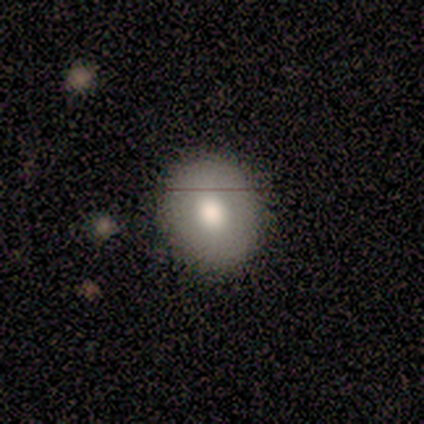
Q: Smooth or featured?
A: smooth (100%)
Q: How rounded?
A: round (100%)
Q: Merging?
A: none (100%)